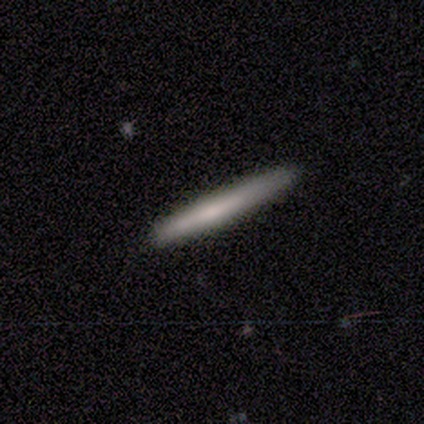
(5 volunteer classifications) This appears to be a smooth galaxy with no disk features (60%) that is cigar-shaped (100%). Merging: none (100%).